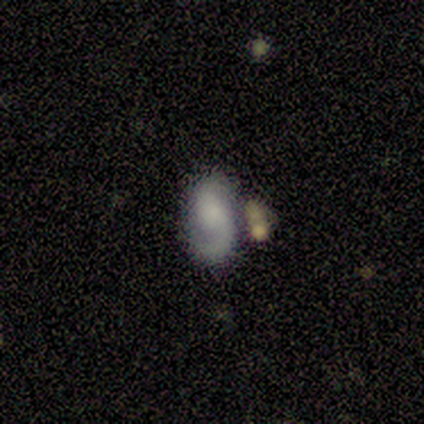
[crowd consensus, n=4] Morphology: type=smooth (75%); roundness=in between (100%); merging=none (50%).